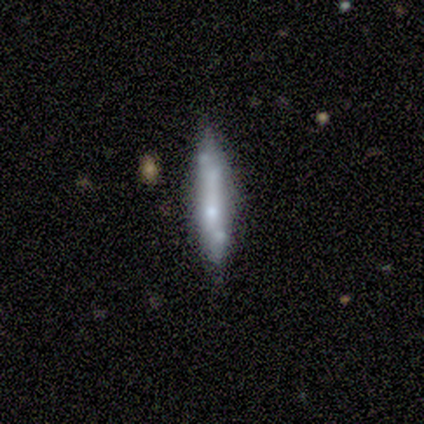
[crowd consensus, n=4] A smooth galaxy with no disk features (75%) that is cigar-shaped (100%).

Vote fractions:
- Smooth or featured? smooth: 75% / featured or disk: 25% / star or artifact: 0%
- How rounded? cigar-shaped: 100% / round: 0% / in between: 0%
- Merging? none: 75% / merger: 25% / minor disturbance: 0% / major disturbance: 0%